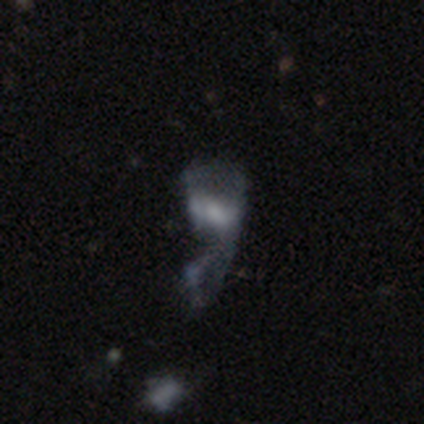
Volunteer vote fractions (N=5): Overall: featured or disk (100%). Edge-on disk: no (100%). Bar: no (60%; weak 40%). Spiral arms: no (80%). Bulge size: none (40%; large 20%). Merging: major disturbance (100%).